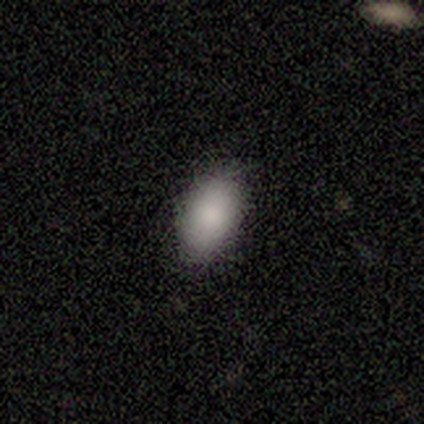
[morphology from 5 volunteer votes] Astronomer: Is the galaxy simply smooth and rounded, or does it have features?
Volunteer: smooth — 80%.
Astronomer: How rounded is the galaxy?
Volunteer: in between — 100%.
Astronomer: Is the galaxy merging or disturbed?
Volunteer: none — 80%.